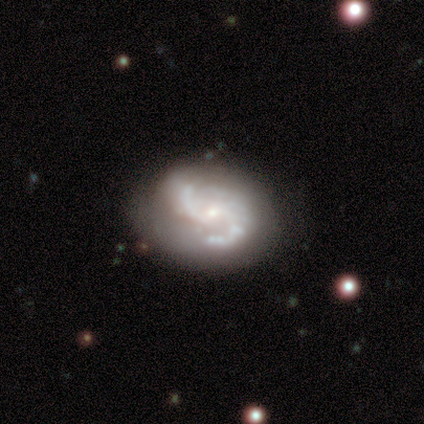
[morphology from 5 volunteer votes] A featured or disk galaxy (80%) with a weak bar (50%), 2 (75%) medium (75%) spiral arms (100%) and a small central bulge (100%). Merging: none (100%).